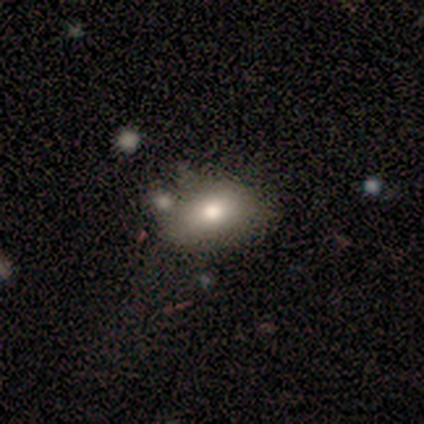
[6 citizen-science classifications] Smooth or featured? 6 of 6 (100%) said smooth. How rounded? 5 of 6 (83%) said in between. Merging? 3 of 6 (50%) said none.